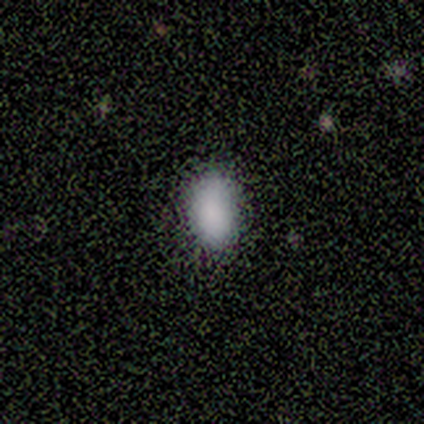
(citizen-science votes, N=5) Smooth or featured: smooth — 80% (star or artifact — 20%)
How rounded: in between — 100%
Merging: none — 75% (minor disturbance — 25%)